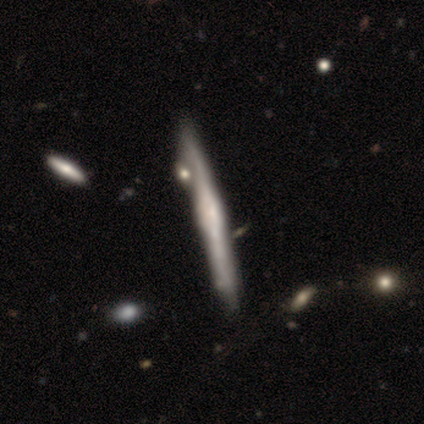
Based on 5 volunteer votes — Morphology: type=featured or disk (60%); edge-on=yes (100%); edge-on bulge=boxy (67%); merging=none (60%).